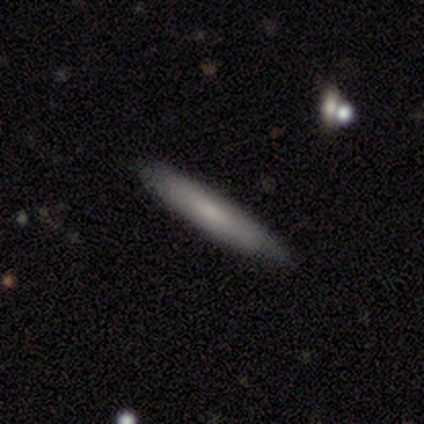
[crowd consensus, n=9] smooth-or-featured: smooth: 78% | featured or disk: 22% | star or artifact: 0%
  how-rounded: cigar-shaped: 86% | in between: 14% | round: 0%
  merging: none: 89% | minor disturbance: 11% | major disturbance: 0% | merger: 0%